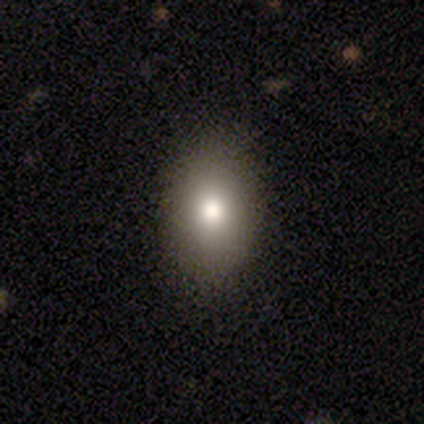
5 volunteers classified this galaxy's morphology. smooth-or-featured: smooth: 80% | featured or disk: 20% | star or artifact: 0%
  how-rounded: in between: 75% | round: 25% | cigar-shaped: 0%
  merging: none: 60% | minor disturbance: 20% | merger: 20% | major disturbance: 0%